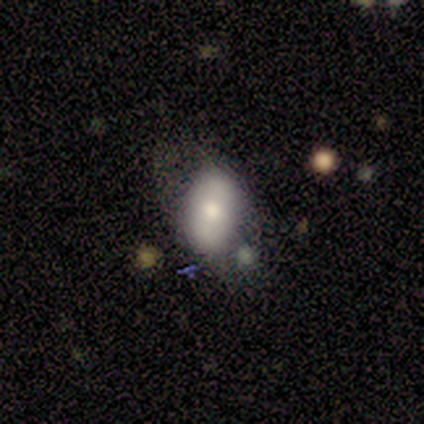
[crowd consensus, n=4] Morphology: type=smooth (75%); roundness=in between (67%); merging=none (50%).